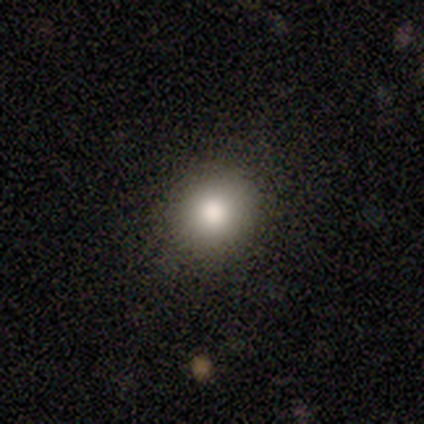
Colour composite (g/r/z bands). It shows a smooth galaxy with no disk features (100%) that is round (100%). Merging: none (100%).